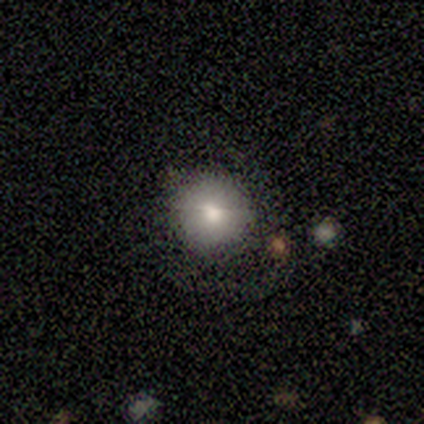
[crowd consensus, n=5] Smooth or featured: smooth — 80% (featured or disk — 20%)
How rounded: round — 100%
Merging: none — 100%